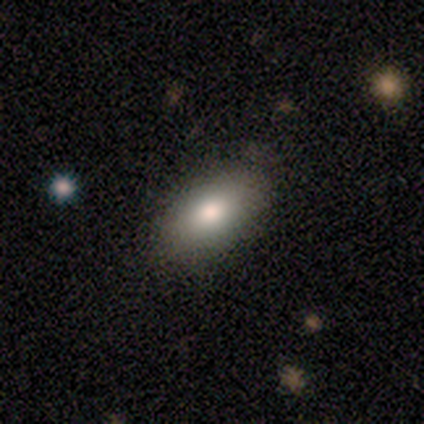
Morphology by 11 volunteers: Overall: smooth (73%). How rounded: in between (100%). Merging: none (100%).